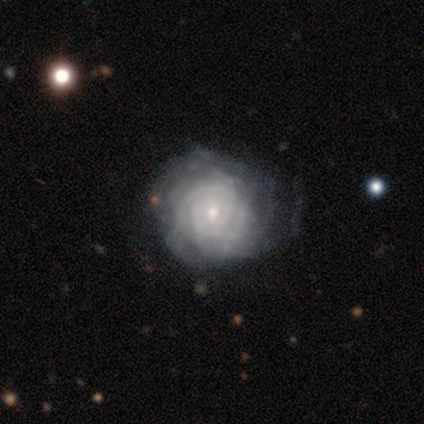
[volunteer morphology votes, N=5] A featured or disk galaxy (60%) with a weak bar (67%), tight (67%) spiral arms (100%) and a small central bulge (67%). Merging: none (40%, tied with minor disturbance).